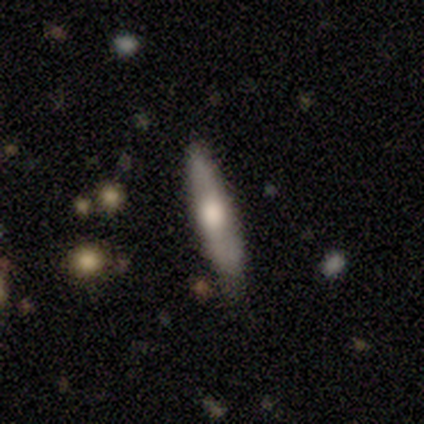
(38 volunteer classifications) featured or disk 45%, smooth 39%, star or artifact 16%. Down the decision tree: edge-on disk — yes (65%); edge-on bulge — rounded (91%); merging — none (84%).